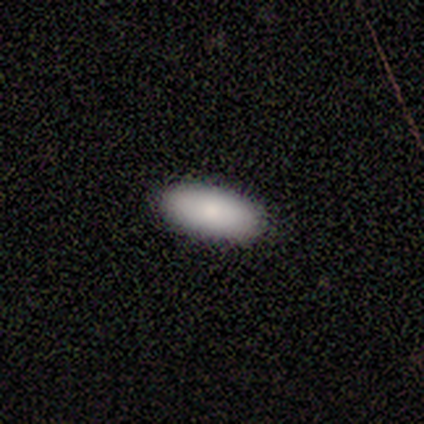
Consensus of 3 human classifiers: smooth 100%, featured or disk 0%, star or artifact 0%. Down the decision tree: how rounded — in between (67%); merging — none (100%).